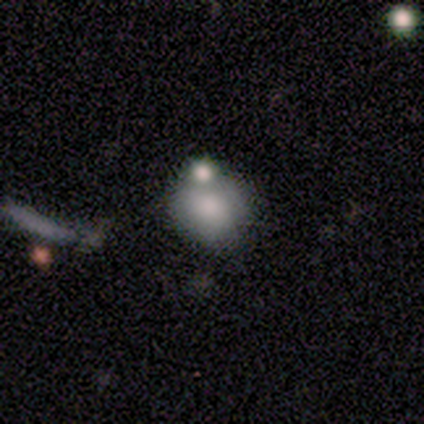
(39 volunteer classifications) smooth-or-featured: smooth: 69% | featured or disk: 18% | star or artifact: 13%
  how-rounded: round: 85% | in between: 15% | cigar-shaped: 0%
  merging: merger: 41% | none: 38% | minor disturbance: 21% | major disturbance: 0%